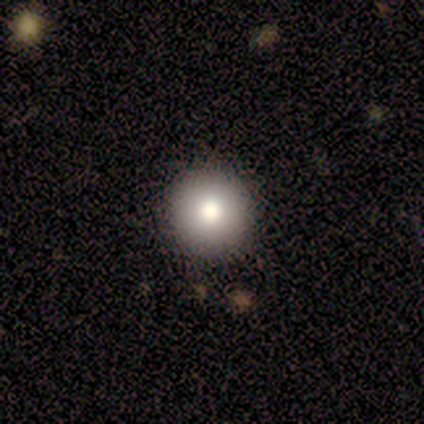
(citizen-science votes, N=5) Q: Smooth or featured?
A: smooth (80%); runner-up: star or artifact (20%)
Q: How rounded?
A: round (100%)
Q: Merging?
A: none (100%)